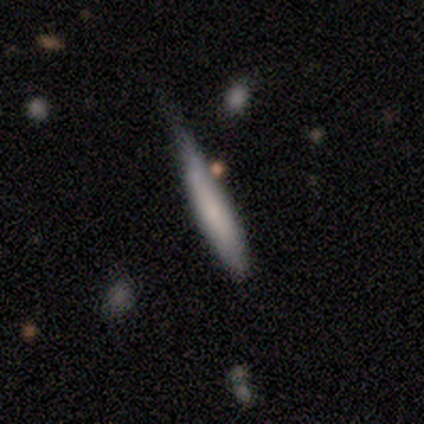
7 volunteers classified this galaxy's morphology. Smooth or featured: smooth — 71% (featured or disk — 14%)
How rounded: cigar-shaped — 100%
Merging: minor disturbance — 67% (none — 17%)